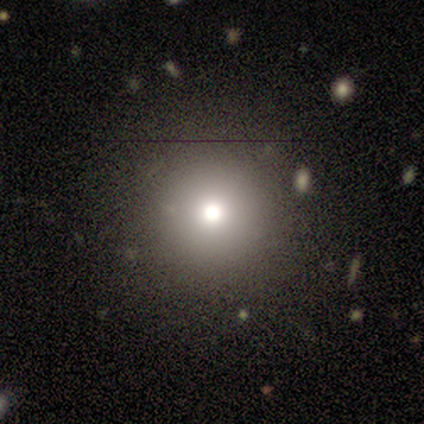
smooth-or-featured: smooth: 79% | star or artifact: 11% | featured or disk: 10%
  how-rounded: round: 98% | cigar-shaped: 2% | in between: 0%
  merging: none: 49% | merger: 5% | minor disturbance: 2% | major disturbance: 2%